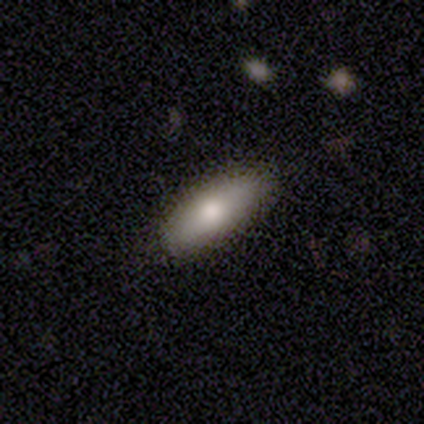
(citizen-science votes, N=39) Q: Smooth or featured?
A: smooth (69%); runner-up: featured or disk (15%)
Q: How rounded?
A: in between (56%); runner-up: cigar-shaped (44%)
Q: Merging?
A: none (91%); runner-up: minor disturbance (6%)